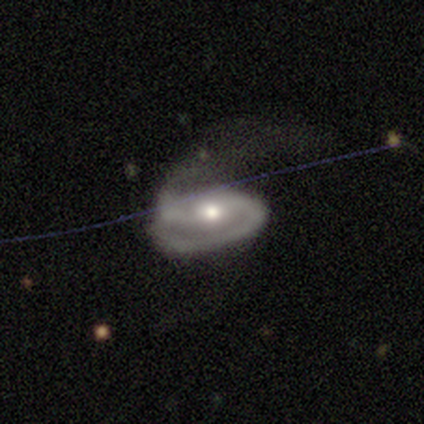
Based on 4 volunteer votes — Smooth or featured: featured or disk — 100%
Edge-on disk: no — 75% (yes — 25%)
Bar: strong — 33% (tied with weak — 33%; no — 33%)
Spiral arms: yes — 67% (no — 33%)
Spiral winding: loose — 100%
Spiral arm count: 2 — 100%
Bulge size: moderate — 100%
Merging: none — 50% (minor disturbance — 25%)